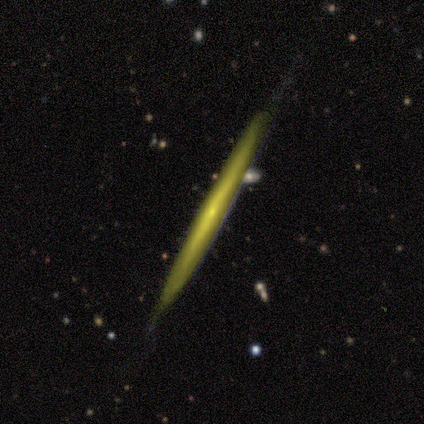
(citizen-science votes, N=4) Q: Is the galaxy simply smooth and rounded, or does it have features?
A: smooth — 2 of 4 (50%, tied with featured or disk).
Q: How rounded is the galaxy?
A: cigar-shaped — 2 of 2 (100%).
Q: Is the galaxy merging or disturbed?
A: none — 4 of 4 (100%).